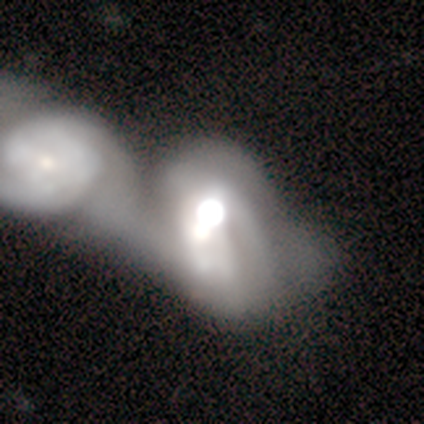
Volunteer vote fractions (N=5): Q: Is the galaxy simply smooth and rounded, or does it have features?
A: featured or disk — 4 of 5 (80%).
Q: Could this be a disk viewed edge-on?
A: no — 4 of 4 (100%).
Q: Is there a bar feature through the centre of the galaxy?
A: no — 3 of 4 (75%).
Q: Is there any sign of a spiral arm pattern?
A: yes — 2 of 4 (50%, tied with no).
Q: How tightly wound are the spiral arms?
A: tight — 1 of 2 (50%, tied with loose).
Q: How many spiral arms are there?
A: can't tell — 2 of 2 (100%).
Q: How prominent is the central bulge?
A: large — 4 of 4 (100%).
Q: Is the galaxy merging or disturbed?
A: merger — 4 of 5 (80%).